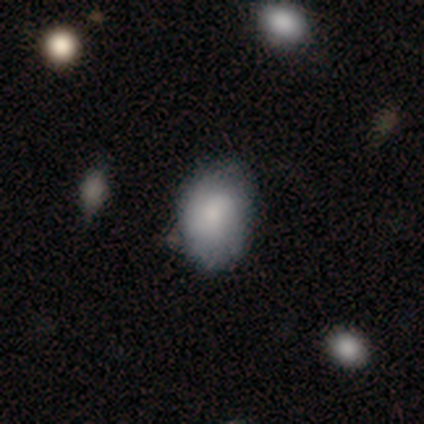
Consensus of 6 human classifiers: A smooth galaxy with no disk features (67%) that is round (50%, tied with in between). Merging: none (83%).